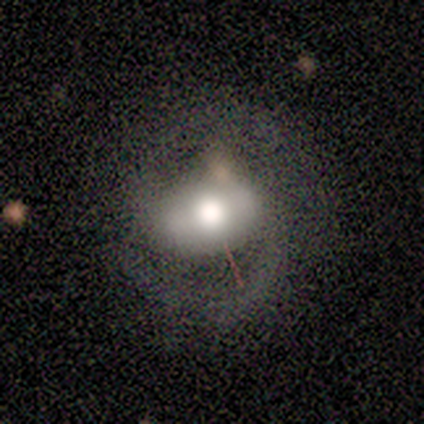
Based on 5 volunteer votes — Smooth or featured? featured or disk (100%)
Edge-on disk? no (100%)
Bar? no (80%)
Spiral arms? yes (100%)
Spiral winding? medium (60%)
Spiral arm count? 2 (100%)
Bulge size? large (80%)
Merging? none (80%)